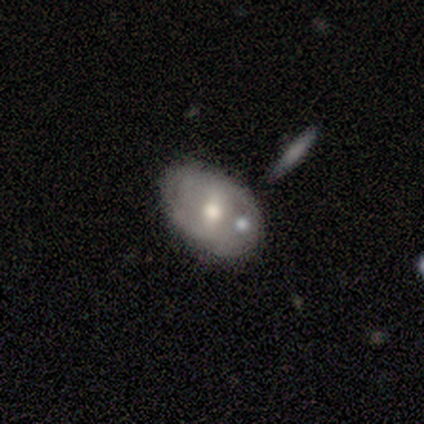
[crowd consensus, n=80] smooth_or_featured: featured or disk (p=0.56) [alt: smooth p=0.40]
disk_edge_on: no (p=0.91) [alt: yes p=0.09]
bar: weak (p=0.46) [alt: no p=0.34]
has_spiral_arms: no (p=0.71) [alt: yes p=0.29]
bulge_size: moderate (p=0.90) [alt: small p=0.07]
merging: none (p=0.38) [alt: merger p=0.29]